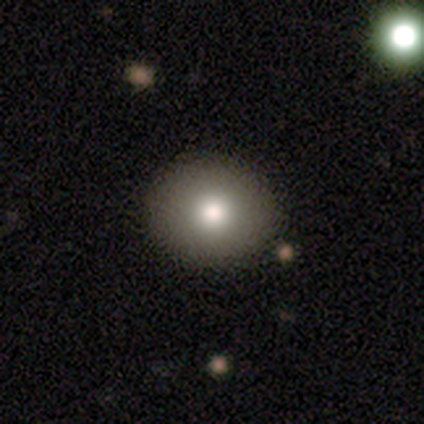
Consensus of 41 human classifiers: Volunteers were most divided on "merging": none: 58%, minor disturbance: 3%, major disturbance: 3%, merger: 3%. More confident: how rounded — round (81%); smooth or featured — smooth (78%).